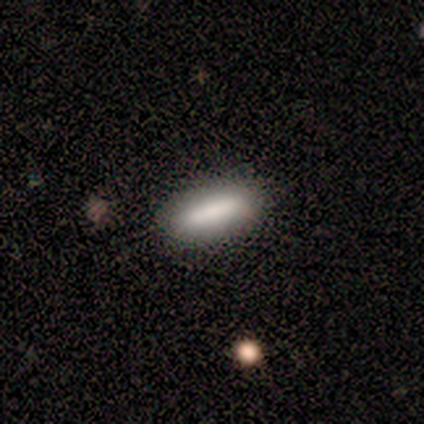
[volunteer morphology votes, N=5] A smooth galaxy with no disk features (80%) that is in between round and cigar-shaped (50%, tied with cigar-shaped). Merging: none (100%).